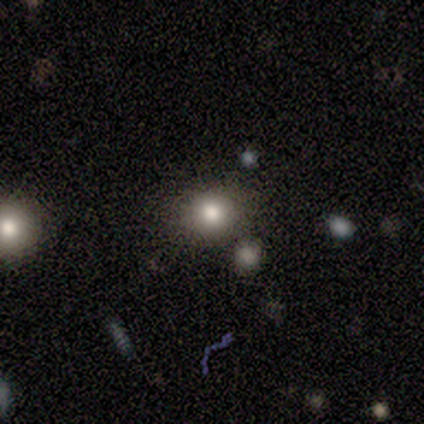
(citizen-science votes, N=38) Overall: smooth (61%; featured or disk 21%). How rounded: round (91%). Merging: none (81%).